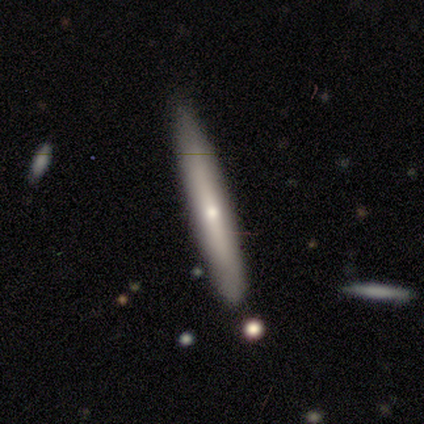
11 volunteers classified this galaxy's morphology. smooth 64%, featured or disk 36%, star or artifact 0%. Down the decision tree: how rounded — cigar-shaped (100%); merging — none (91%).